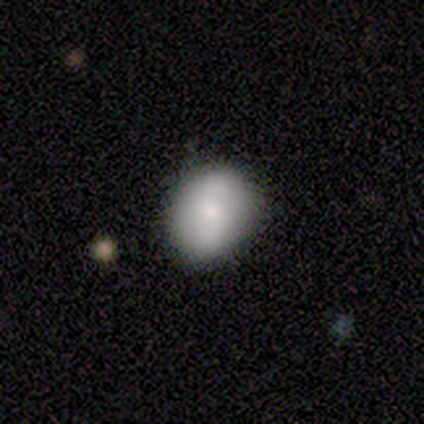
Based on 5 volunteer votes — A smooth galaxy with no disk features (60%) that is round (100%). Merging: none (60%).